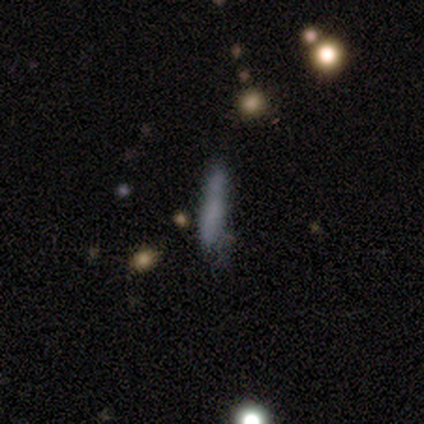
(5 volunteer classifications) smooth_or_featured: smooth (p=1.00)
how_rounded: cigar-shaped (p=0.80) [alt: in between p=0.20]
merging: none (p=0.60) [alt: minor disturbance p=0.20]